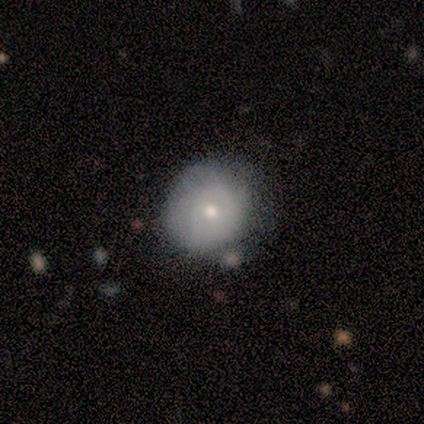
smooth-or-featured: featured or disk: 75% | smooth: 25% | star or artifact: 0%
  disk-edge-on: no: 100% | yes: 0%
    bar: no: 100% | strong: 0% | weak: 0%
    has-spiral-arms: no: 100% | yes: 0%
    bulge-size: small: 67% | moderate: 33% | dominant: 0% | large: 0% | none: 0%
  merging: none: 50% (tied) | minor disturbance: 50% (tied) | major disturbance: 0% | merger: 0%